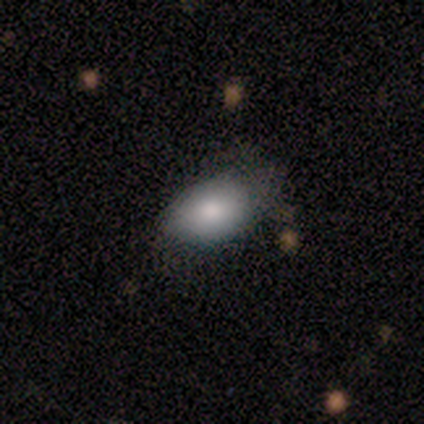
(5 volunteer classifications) Smooth or featured? 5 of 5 (100%) said smooth. How rounded? 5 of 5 (100%) said in between. Merging? 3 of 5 (60%) said none.